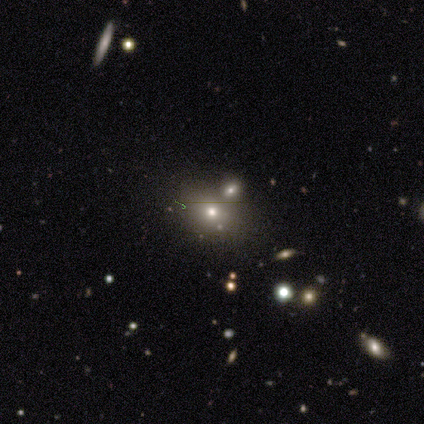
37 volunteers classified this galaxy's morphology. This is possibly a smooth galaxy (57%). How rounded: likely in between (62%). Merging: likely none (63%).